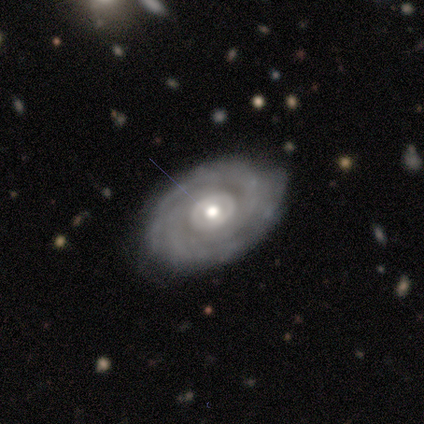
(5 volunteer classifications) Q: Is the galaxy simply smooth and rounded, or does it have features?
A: featured or disk — 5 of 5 (100%).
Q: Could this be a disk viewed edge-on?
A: no — 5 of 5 (100%).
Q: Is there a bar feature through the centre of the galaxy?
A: no — 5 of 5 (100%).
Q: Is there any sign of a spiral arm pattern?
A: yes — 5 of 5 (100%).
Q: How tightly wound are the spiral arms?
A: tight — 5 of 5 (100%).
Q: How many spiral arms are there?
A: can't tell — 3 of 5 (60%).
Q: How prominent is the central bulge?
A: moderate — 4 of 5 (80%).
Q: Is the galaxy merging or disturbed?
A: none — 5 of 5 (100%).